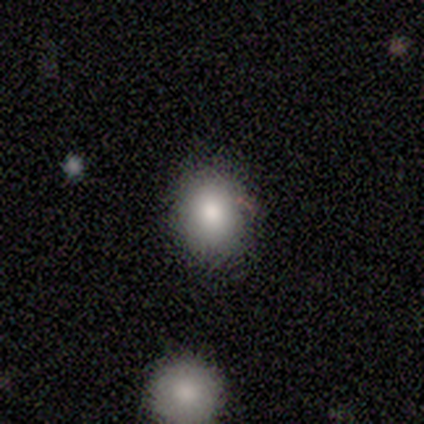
This is clearly a smooth galaxy (82%). How rounded: possibly round (55%). Merging: likely none (73%).